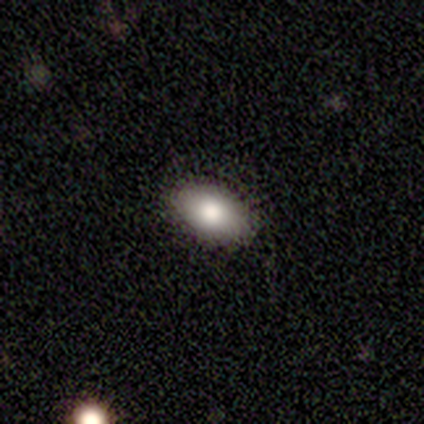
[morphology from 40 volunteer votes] Smooth or featured? 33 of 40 (82%) said smooth. How rounded? 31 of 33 (94%) said in between. Merging? 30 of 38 (79%) said none.